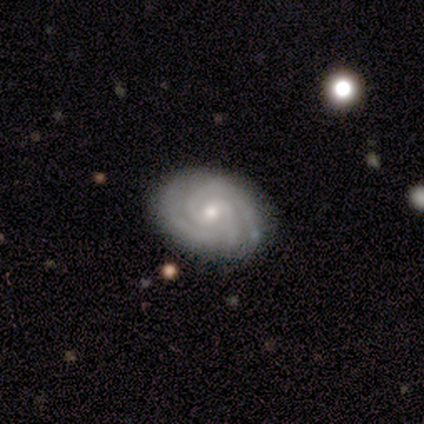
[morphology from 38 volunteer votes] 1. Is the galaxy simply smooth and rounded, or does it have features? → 92% featured or disk, 8% smooth, 0% star or artifact.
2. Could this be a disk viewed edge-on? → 97% no, 3% yes.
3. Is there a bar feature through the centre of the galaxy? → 56% no, 38% weak, 6% strong.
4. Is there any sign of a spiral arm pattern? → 100% yes, 0% no.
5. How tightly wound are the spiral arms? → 71% tight, 15% medium, 15% loose.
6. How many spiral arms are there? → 50% 2, 38% 3, 9% can't tell, 3% 4, 0% 1, 0% more than 4.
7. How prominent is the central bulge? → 59% small, 41% moderate, 0% dominant, 0% large, 0% none.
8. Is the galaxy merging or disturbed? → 89% none, 8% minor disturbance, 3% major disturbance, 0% merger.